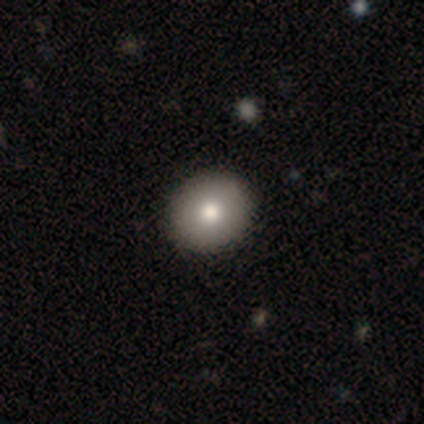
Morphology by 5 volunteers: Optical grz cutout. It shows a smooth galaxy with no disk features (80%) that is round (75%). Merging: none (60%).